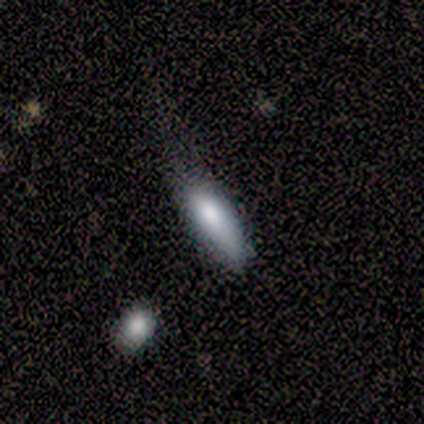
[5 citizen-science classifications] This appears to be a smooth galaxy with no disk features (80%) that is in between round and cigar-shaped (50%, tied with cigar-shaped). Merging: none (40%, tied with minor disturbance).